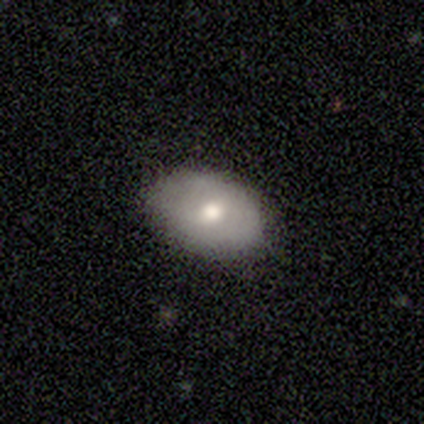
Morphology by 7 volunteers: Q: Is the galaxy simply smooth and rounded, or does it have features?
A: smooth — 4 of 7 (57%).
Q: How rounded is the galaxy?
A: in between — 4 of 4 (100%).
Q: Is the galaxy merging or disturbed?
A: none — 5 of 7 (71%).